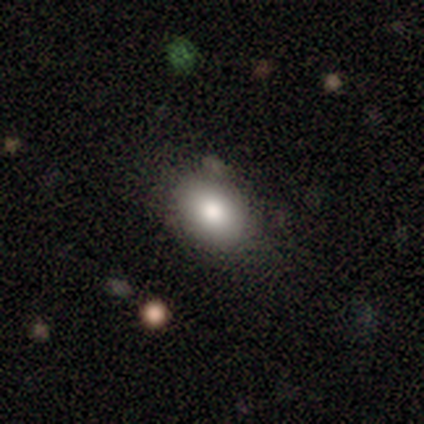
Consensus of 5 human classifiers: A smooth galaxy with no disk features (100%) that is in between round and cigar-shaped (100%).

Vote fractions:
- Smooth or featured? smooth: 100% / featured or disk: 0% / star or artifact: 0%
- How rounded? in between: 100% / round: 0% / cigar-shaped: 0%
- Merging? none: 80% / minor disturbance: 20% / major disturbance: 0% / merger: 0%